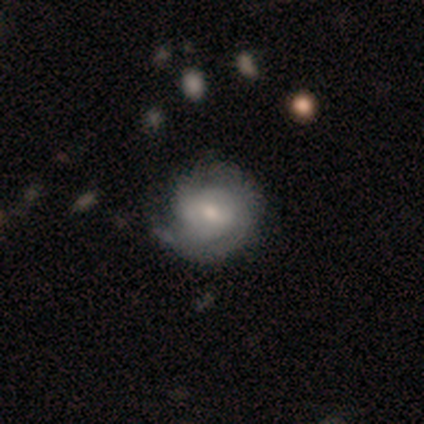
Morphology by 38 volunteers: Smooth or featured: featured or disk — 61% (smooth — 32%)
Edge-on disk: no — 96% (yes — 4%)
Bar: weak — 59% (no — 36%)
Spiral arms: yes — 91% (no — 9%)
Spiral winding: medium — 50% (tight — 40%)
Spiral arm count: can't tell — 30% (2 — 25%)
Bulge size: moderate — 50% (small — 45%)
Merging: none — 57% (minor disturbance — 29%)